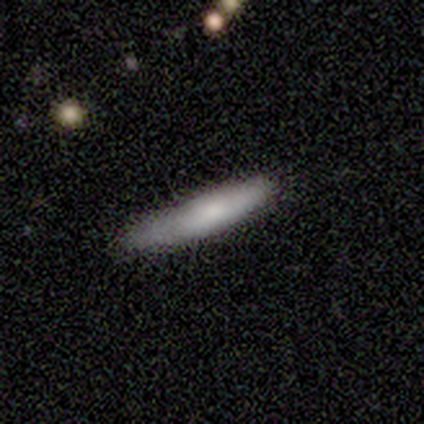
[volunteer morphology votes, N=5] Smooth or featured? 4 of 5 (80%) said smooth. How rounded? 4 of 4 (100%) said cigar-shaped. Merging? 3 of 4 (75%) said none.